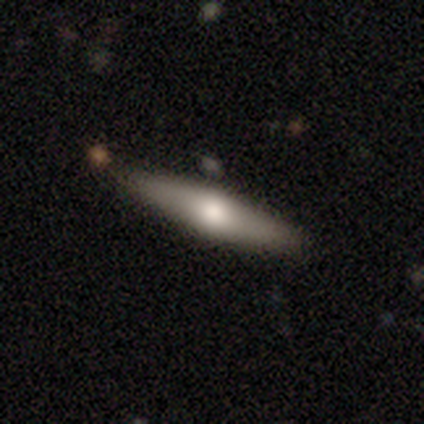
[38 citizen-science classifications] This is possibly a smooth galaxy (47%, tied with featured or disk). How rounded: clearly cigar-shaped (89%). Merging: clearly none (86%).